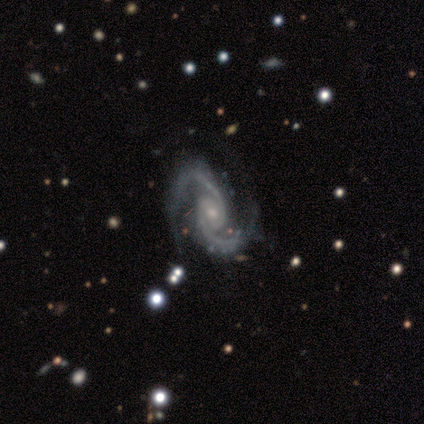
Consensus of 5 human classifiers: A featured or disk galaxy (100%) with no bar (60%), 2 (100%) medium (80%) spiral arms (100%) and a small central bulge (60%). Merging: none (80%).